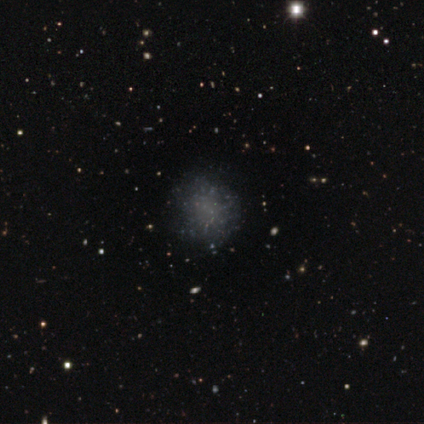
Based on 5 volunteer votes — Volunteers were most divided on "smooth or featured": star or artifact: 60%, smooth: 40%, featured or disk: 0%.